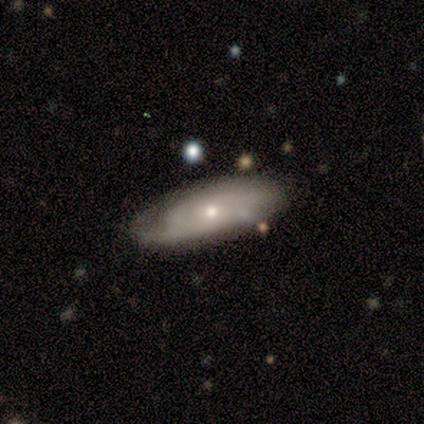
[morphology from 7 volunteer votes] Smooth or featured?
  - featured or disk: 86% *
  - smooth: 14%
  - star or artifact: 0%
Edge-on disk?
  - no: 100% *
  - yes: 0%
Bar?
  - no: 100% *
  - strong: 0%
  - weak: 0%
Spiral arms?
  - no: 67% *
  - yes: 33%
Bulge size?
  - small: 67% *
  - large: 17%
  - moderate: 17%
  - dominant: 0%
  - none: 0%
Merging?
  - none: 71% *
  - minor disturbance: 29%
  - major disturbance: 0%
  - merger: 0%